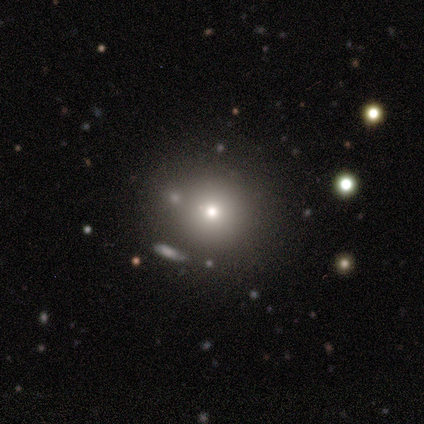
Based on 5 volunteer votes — Overall: smooth (60%; star or artifact 40%). How rounded: round (100%). Merging: none (67%; merger 33%).